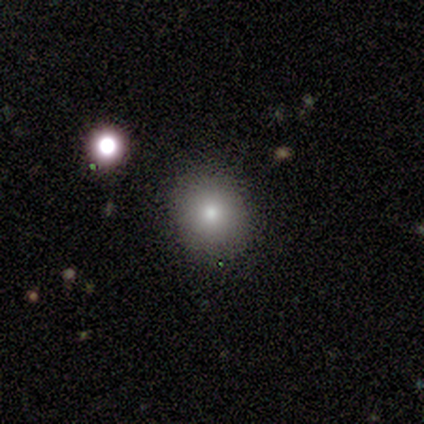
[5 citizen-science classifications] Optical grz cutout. It shows a smooth galaxy with no disk features (80%) that is round (75%). Merging: none (75%).